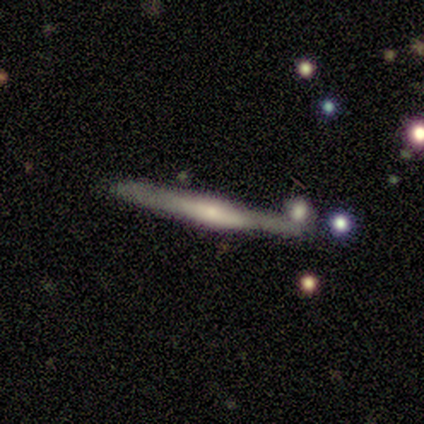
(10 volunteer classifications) Overall: featured or disk (80%). Edge-on disk: yes (75%). Edge-on bulge: rounded (83%). Merging: none (80%).